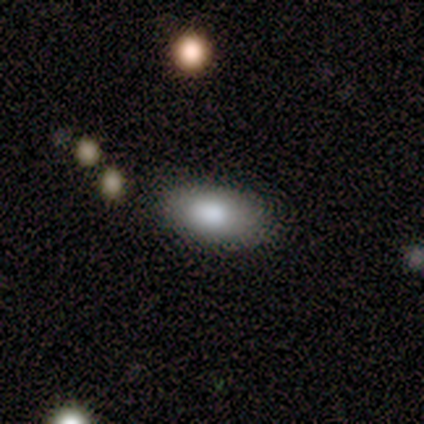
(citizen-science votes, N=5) This appears to be a smooth galaxy with no disk features (100%) that is in between round and cigar-shaped (100%). Merging: none (80%).